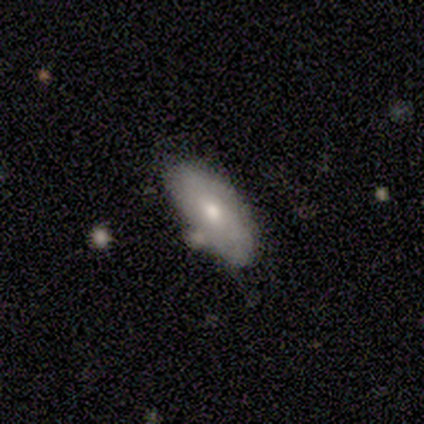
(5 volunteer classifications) Volunteers were most divided on "merging": none: 60%, minor disturbance: 20%, merger: 20%, major disturbance: 0%. More confident: how rounded — in between (100%); smooth or featured — smooth (80%).